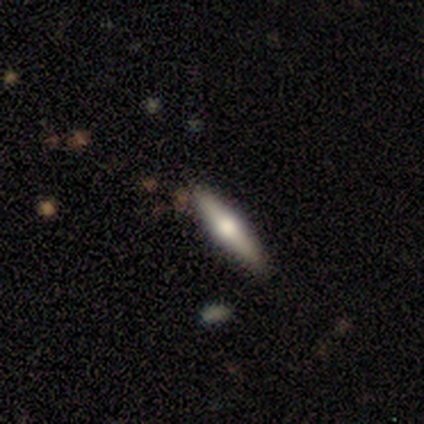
featured or disk 57%, smooth 43%, star or artifact 0%. Down the decision tree: edge-on disk — yes (100%); edge-on bulge — rounded (100%); merging — none (86%).